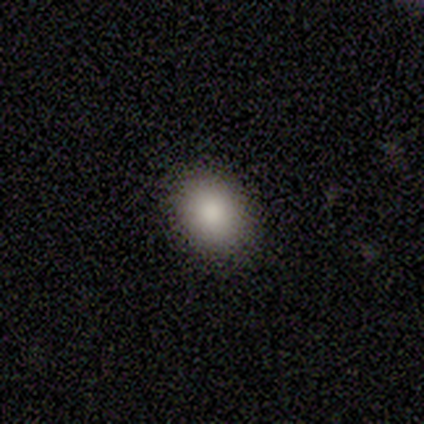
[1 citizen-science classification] A smooth galaxy with no disk features (100%) that is round (100%).

Vote fractions:
- Smooth or featured? smooth: 100% / featured or disk: 0% / star or artifact: 0%
- How rounded? round: 100% / in between: 0% / cigar-shaped: 0%
- Merging? none: 100% / minor disturbance: 0% / major disturbance: 0% / merger: 0%